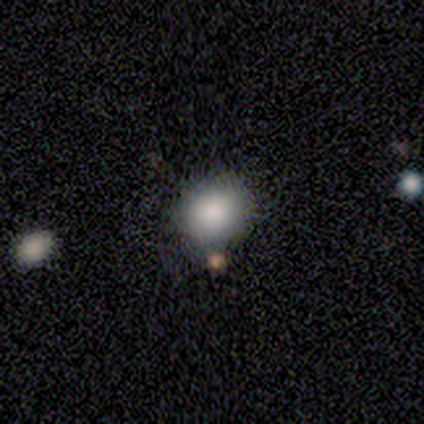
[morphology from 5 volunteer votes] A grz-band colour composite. It shows a smooth galaxy with no disk features (80%) that is round (75%). Merging: none (100%).